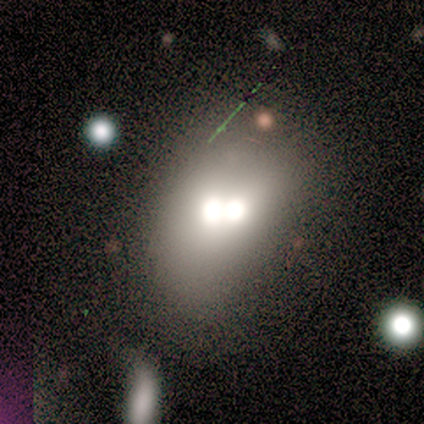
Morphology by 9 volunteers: Smooth or featured? 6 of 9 (67%) said featured or disk. Edge-on disk? 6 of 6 (100%) said no. Bar? 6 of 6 (100%) said no. Spiral arms? 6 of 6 (100%) said no. Bulge size? 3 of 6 (50%) said moderate. Merging? 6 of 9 (67%) said merger.